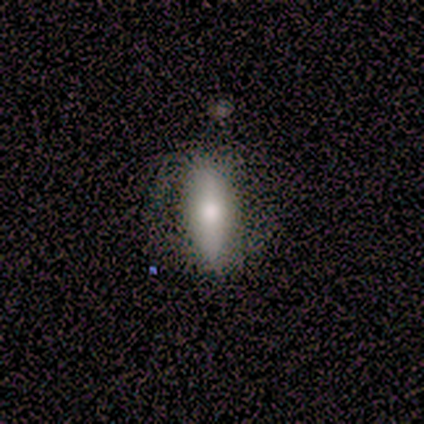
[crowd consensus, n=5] A smooth galaxy with no disk features (60%) that is in between round and cigar-shaped (100%).

Vote fractions:
- Smooth or featured? smooth: 60% / featured or disk: 40% / star or artifact: 0%
- How rounded? in between: 100% / round: 0% / cigar-shaped: 0%
- Merging? none: 40% (tied) / minor disturbance: 40% (tied) / major disturbance: 20% / merger: 0%